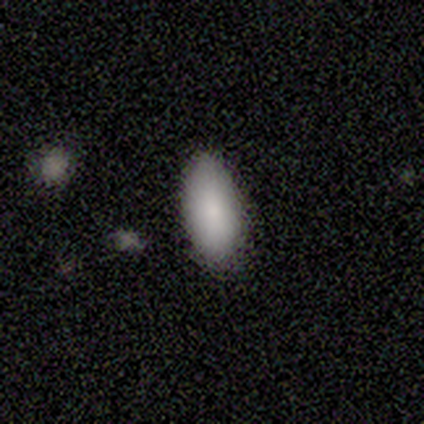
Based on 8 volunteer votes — smooth-or-featured: smooth: 100% | featured or disk: 0% | star or artifact: 0%
  how-rounded: in between: 100% | round: 0% | cigar-shaped: 0%
  merging: none: 100% | minor disturbance: 0% | major disturbance: 0% | merger: 0%